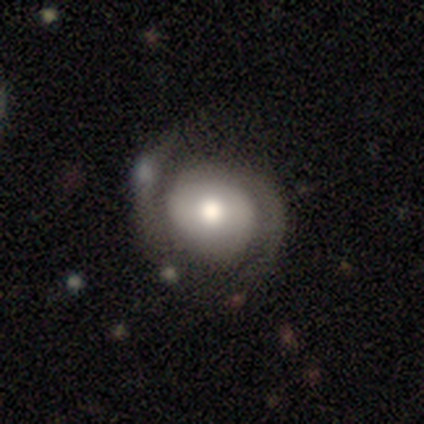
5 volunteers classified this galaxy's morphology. smooth_or_featured: featured or disk (p=0.40) [tied with: star or artifact p=0.40]
disk_edge_on: no (p=1.00)
bar: weak (p=0.50) [tied with: no p=0.50]
has_spiral_arms: yes (p=1.00)
spiral_winding: tight (p=0.50) [tied with: medium p=0.50]
spiral_arm_count: 2 (p=1.00)
bulge_size: moderate (p=1.00)
merging: none (p=1.00)